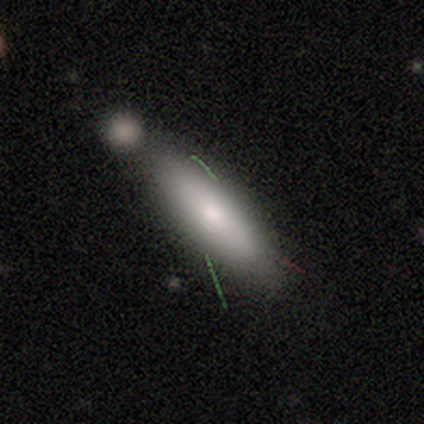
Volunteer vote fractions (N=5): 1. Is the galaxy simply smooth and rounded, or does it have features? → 80% smooth, 20% featured or disk, 0% star or artifact.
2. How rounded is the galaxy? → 75% cigar-shaped, 25% in between, 0% round.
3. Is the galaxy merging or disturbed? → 80% none, 20% minor disturbance, 0% major disturbance, 0% merger.